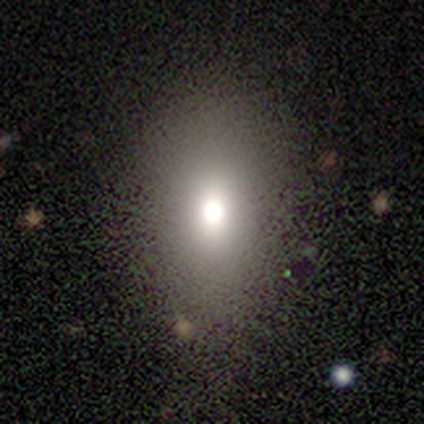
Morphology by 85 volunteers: smooth-or-featured: smooth: 65% | star or artifact: 22% | featured or disk: 13%
  how-rounded: in between: 75% | round: 22% | cigar-shaped: 4%
  merging: none: 71% | minor disturbance: 14% | major disturbance: 14% | merger: 2%